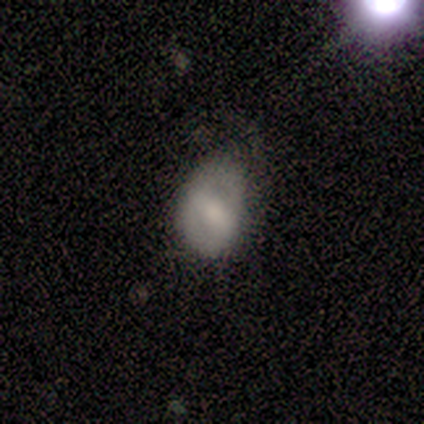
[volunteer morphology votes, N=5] Smooth or featured: smooth — 60% (featured or disk — 20%)
How rounded: in between — 67% (round — 33%)
Merging: minor disturbance — 75% (merger — 25%)